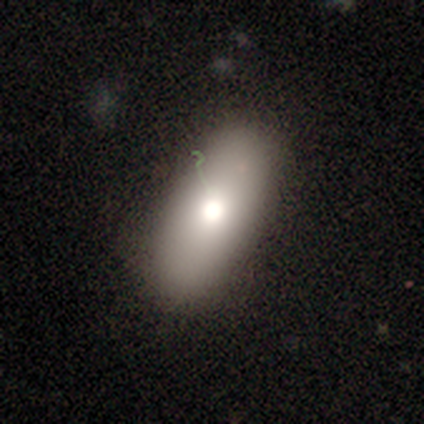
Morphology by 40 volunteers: Volunteers were most divided on "how rounded": in between: 81%, cigar-shaped: 19%, round: 0%. More confident: merging — none (89%); smooth or featured — smooth (80%).